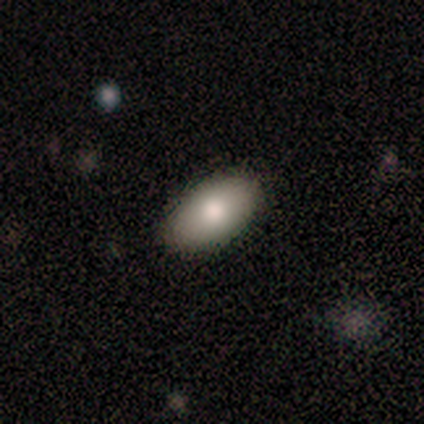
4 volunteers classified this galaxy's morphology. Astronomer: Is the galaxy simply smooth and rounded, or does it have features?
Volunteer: smooth — 100%.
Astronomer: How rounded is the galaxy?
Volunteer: in between — 100%.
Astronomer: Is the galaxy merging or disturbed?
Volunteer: none — 100%.